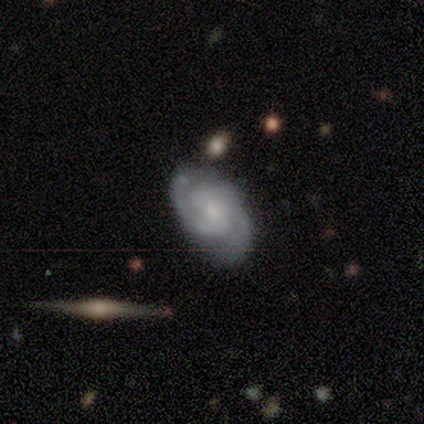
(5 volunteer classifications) Morphology: type=featured or disk (60%); edge-on=no (100%); bar=no (100%); spiral arms=yes (100%); winding=tight (67%); arm count=2 (100%); bulge=small (67%); merging=minor disturbance (50%).